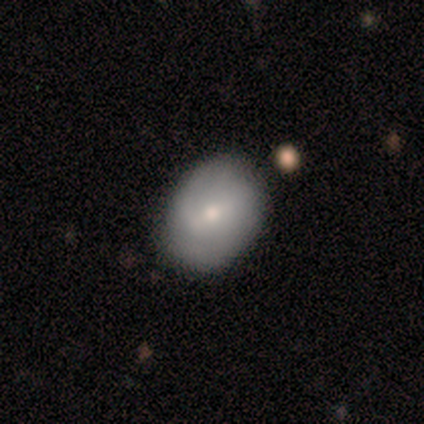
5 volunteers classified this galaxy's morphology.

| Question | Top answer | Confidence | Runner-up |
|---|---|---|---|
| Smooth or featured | smooth | 60% | featured or disk (40%) |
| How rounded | in between | 67% | round (33%) |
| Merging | none | 100% | — |